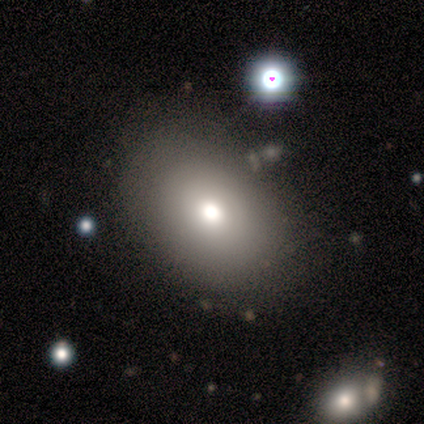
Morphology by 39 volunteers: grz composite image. It shows a smooth galaxy with no disk features (74%) that is in between round and cigar-shaped (76%). Merging: none (76%).